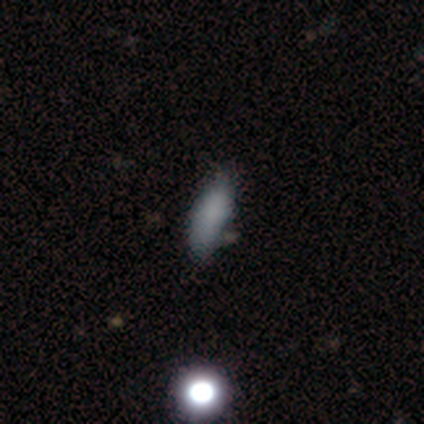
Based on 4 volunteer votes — Volunteers were most divided on "how rounded" (2-way tie): in between: 50%, cigar-shaped: 50%, round: 0%. More confident: merging — minor disturbance (67%); smooth or featured — smooth (50%).